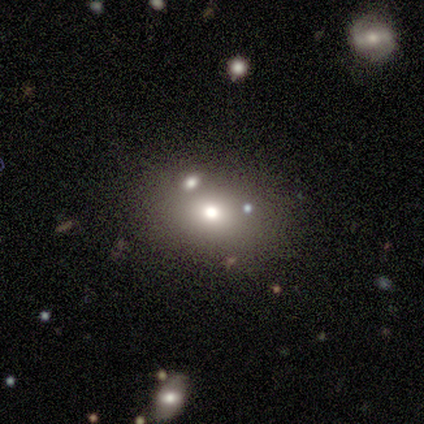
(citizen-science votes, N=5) Volunteers were most divided on "smooth or featured": smooth: 60%, featured or disk: 40%, star or artifact: 0%. More confident: merging — none (80%); how rounded — in between (67%).